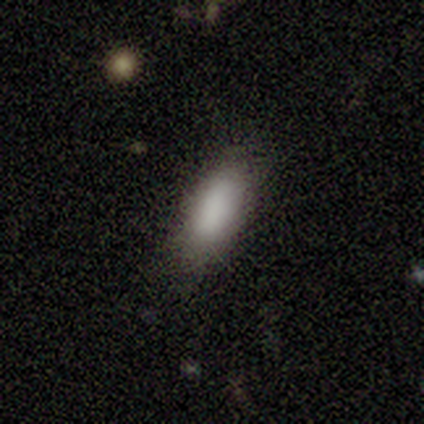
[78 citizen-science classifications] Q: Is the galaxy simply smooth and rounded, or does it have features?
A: smooth — 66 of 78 (85%).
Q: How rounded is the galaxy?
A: in between — 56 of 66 (85%).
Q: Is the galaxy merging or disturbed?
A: none — 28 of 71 (39%).